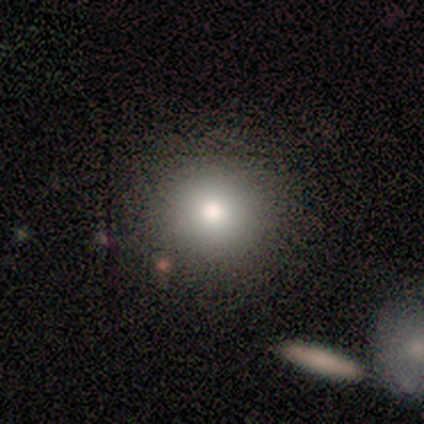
A smooth galaxy with no disk features (80%) that is round (75%). Merging: none (80%).